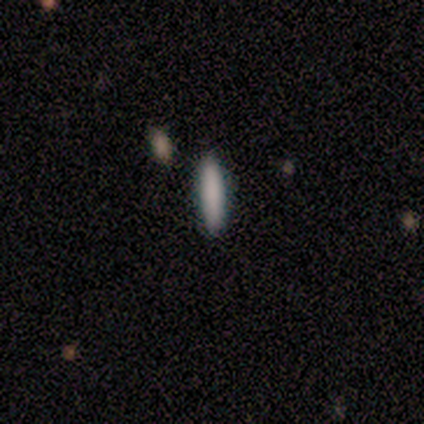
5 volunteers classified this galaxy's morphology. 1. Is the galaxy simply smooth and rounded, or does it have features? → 80% smooth, 20% featured or disk, 0% star or artifact.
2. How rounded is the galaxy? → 75% cigar-shaped, 25% in between, 0% round.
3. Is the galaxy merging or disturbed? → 100% none, 0% minor disturbance, 0% major disturbance, 0% merger.